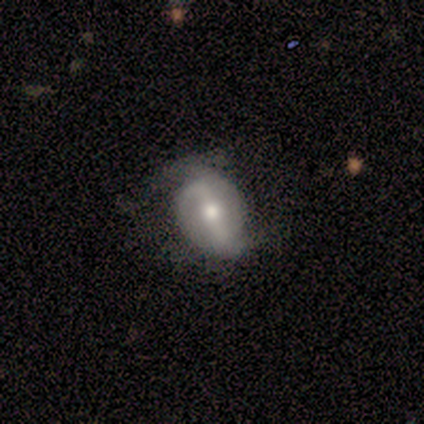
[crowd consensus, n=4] smooth-or-featured: smooth: 50% (tied) | featured or disk: 50% (tied) | star or artifact: 0%
  how-rounded: in between: 100% | round: 0% | cigar-shaped: 0%
  merging: none: 75% | minor disturbance: 25% | major disturbance: 0% | merger: 0%